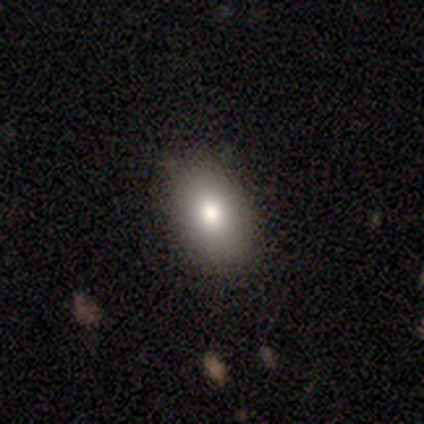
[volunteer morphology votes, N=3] Smooth or featured? 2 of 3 (67%) said smooth. How rounded? 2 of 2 (100%) said in between. Merging? 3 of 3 (100%) said none.